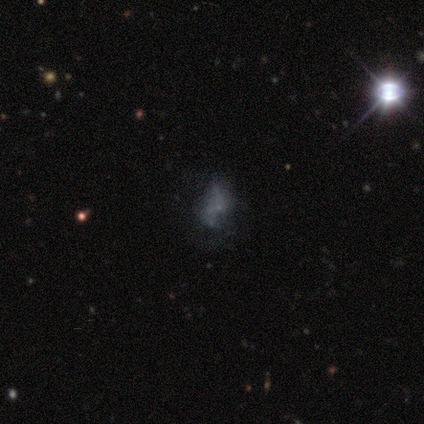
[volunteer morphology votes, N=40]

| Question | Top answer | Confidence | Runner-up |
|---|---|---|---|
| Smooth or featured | featured or disk | 57% | smooth (22%) |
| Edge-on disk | no | 100% | — |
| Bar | no | 87% | weak (13%) |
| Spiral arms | no | 70% | yes (30%) |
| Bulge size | none | 61% | small (39%) |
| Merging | none | 50% | major disturbance (28%) |